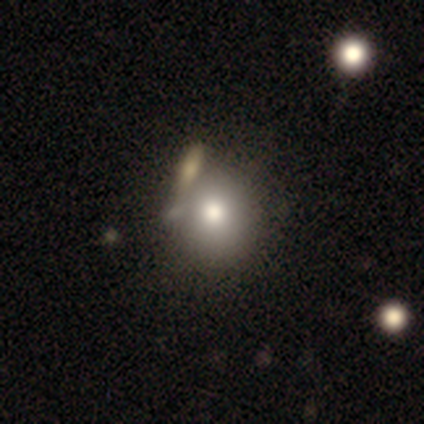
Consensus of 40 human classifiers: Smooth or featured: smooth — 82% (featured or disk — 12%)
How rounded: round — 82% (in between — 18%)
Merging: none — 47% (merger — 34%)